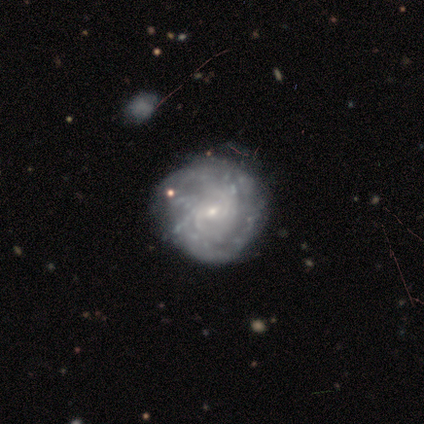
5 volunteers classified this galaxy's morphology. This is clearly a featured or disk galaxy (80%). It is clearly not viewed edge-on (100%). Bar: likely weak (75%). Spiral arm pattern: likely yes (75%). Spiral arm count: likely 3 (67%). Spiral winding: likely tight (67%). Central bulge: likely small (75%). Merging: likely none (75%).